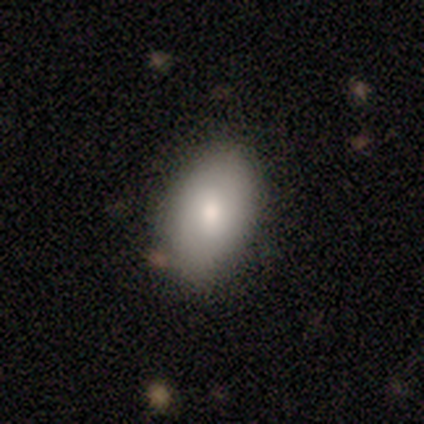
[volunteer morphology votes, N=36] type=smooth (81%); roundness=in between (97%); merging=none (71%).